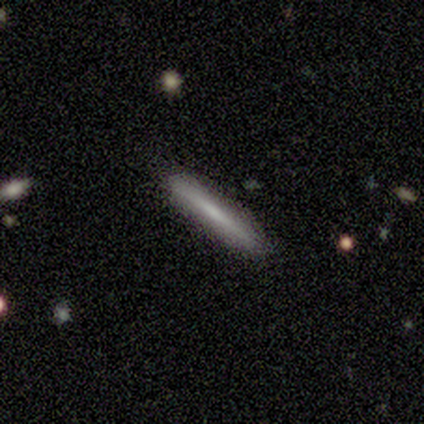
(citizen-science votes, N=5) smooth_or_featured: smooth (p=1.00)
how_rounded: cigar-shaped (p=1.00)
merging: none (p=1.00)